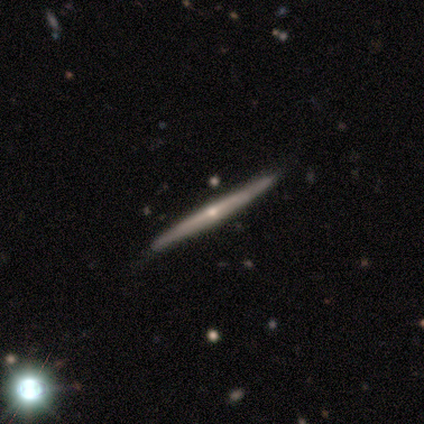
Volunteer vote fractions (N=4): A smooth galaxy with no disk features (50%, tied with featured or disk) that is cigar-shaped (100%).

Vote fractions:
- Smooth or featured? smooth: 50% (tied) / featured or disk: 50% (tied) / star or artifact: 0%
- How rounded? cigar-shaped: 100% / round: 0% / in between: 0%
- Merging? none: 75% / merger: 25% / minor disturbance: 0% / major disturbance: 0%